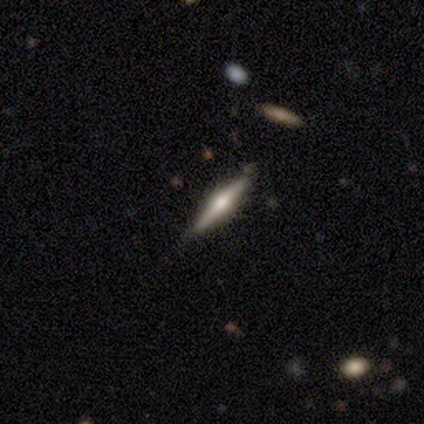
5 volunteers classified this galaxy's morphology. smooth_or_featured: smooth (p=0.60) [alt: featured or disk p=0.20]
how_rounded: cigar-shaped (p=1.00)
merging: none (p=0.75) [alt: minor disturbance p=0.25]